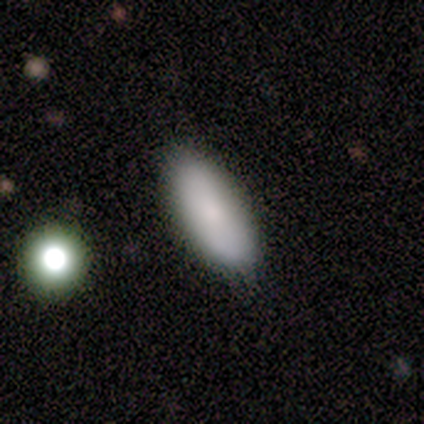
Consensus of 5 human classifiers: Morphology: type=smooth (80%); roundness=in between (100%); merging=none (50%, tied with minor disturbance).